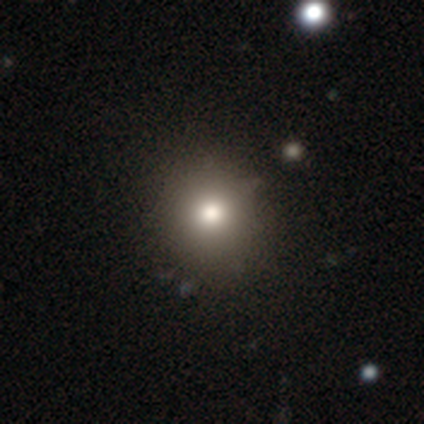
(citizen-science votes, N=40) smooth_or_featured: smooth (p=0.90) [alt: featured or disk p=0.07]
how_rounded: round (p=0.92) [alt: in between p=0.08]
merging: none (p=0.64) [alt: minor disturbance p=0.05]